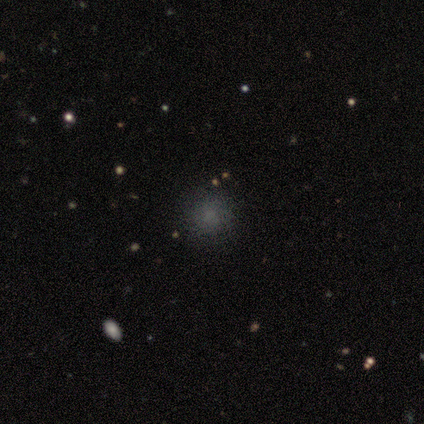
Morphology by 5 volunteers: Smooth or featured: smooth — 80% (star or artifact — 20%)
How rounded: round — 75% (in between — 25%)
Merging: none — 75% (minor disturbance — 25%)